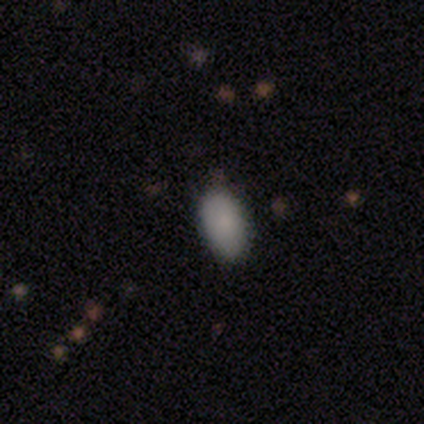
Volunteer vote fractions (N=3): Q: Smooth or featured?
A: smooth (100%)
Q: How rounded?
A: in between (67%); runner-up: cigar-shaped (33%)
Q: Merging?
A: none (100%)